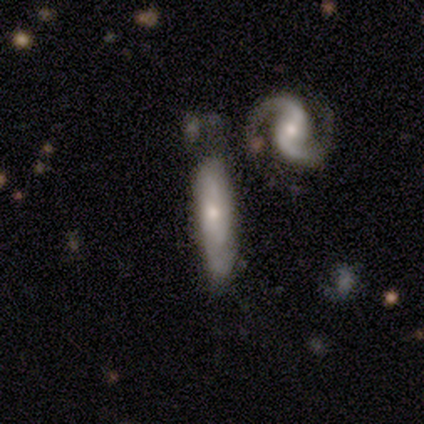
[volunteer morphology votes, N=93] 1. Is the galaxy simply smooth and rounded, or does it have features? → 69% featured or disk, 24% smooth, 8% star or artifact.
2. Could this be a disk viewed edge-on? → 70% no, 30% yes.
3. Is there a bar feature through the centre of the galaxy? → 71% no, 24% weak, 4% strong.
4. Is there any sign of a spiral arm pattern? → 82% yes, 18% no.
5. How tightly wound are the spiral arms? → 49% tight, 27% medium, 24% loose.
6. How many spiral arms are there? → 43% 2, 38% can't tell, 11% 3, 8% 1, 0% 4, 0% more than 4.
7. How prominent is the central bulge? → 49% small, 44% moderate, 4% none, 2% large, 0% dominant.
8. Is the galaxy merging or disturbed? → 31% none, 28% minor disturbance, 22% merger, 19% major disturbance.